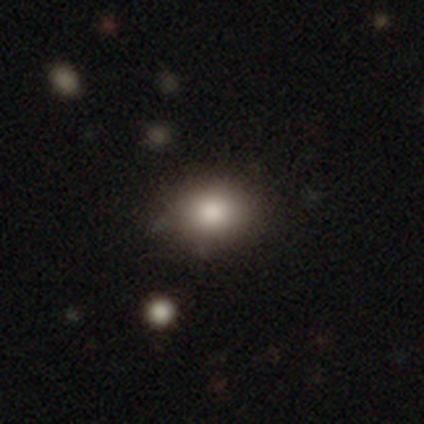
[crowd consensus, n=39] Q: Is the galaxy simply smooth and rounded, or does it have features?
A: smooth — 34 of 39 (87%).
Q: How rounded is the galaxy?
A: in between — 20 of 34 (59%).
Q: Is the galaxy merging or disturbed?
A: none — 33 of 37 (89%).